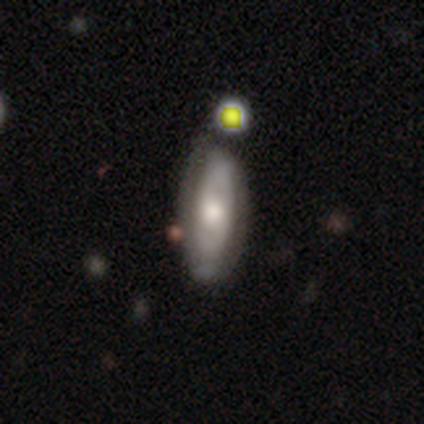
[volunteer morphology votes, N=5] Q: Smooth or featured?
A: smooth (60%); runner-up: featured or disk (40%)
Q: How rounded?
A: in between (67%); runner-up: cigar-shaped (33%)
Q: Merging?
A: none (40%); tied with: minor disturbance (40%)